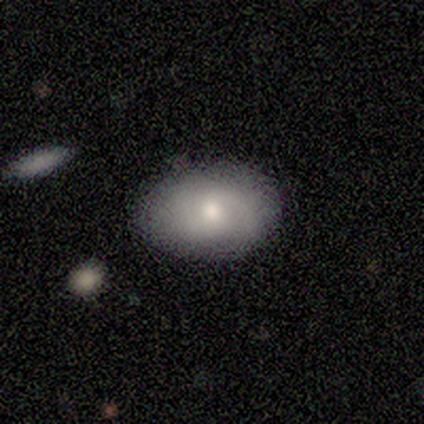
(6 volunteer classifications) A smooth galaxy with no disk features (100%) that is in between round and cigar-shaped (83%).

Vote fractions:
- Smooth or featured? smooth: 100% / featured or disk: 0% / star or artifact: 0%
- How rounded? in between: 83% / round: 17% / cigar-shaped: 0%
- Merging? none: 67% / minor disturbance: 33% / major disturbance: 0% / merger: 0%